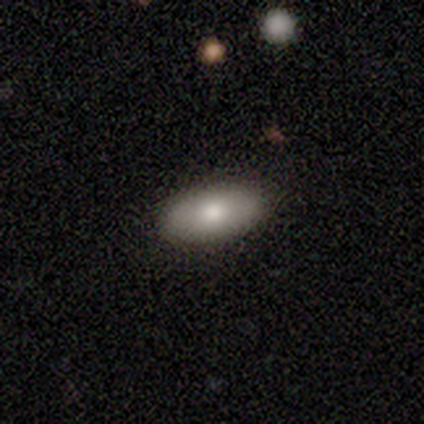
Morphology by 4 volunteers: smooth 50%, featured or disk 25%, star or artifact 25%. Down the decision tree: how rounded — in between (100%); merging — none (67%).